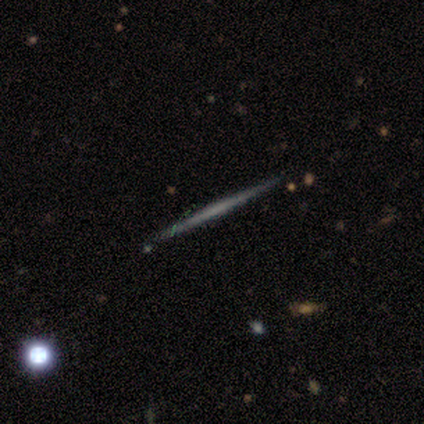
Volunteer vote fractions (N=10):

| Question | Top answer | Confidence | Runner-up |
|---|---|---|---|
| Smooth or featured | featured or disk | 60% | smooth (40%) |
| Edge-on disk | yes | 100% | — |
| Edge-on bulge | none | 100% | — |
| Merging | none | 100% | — |